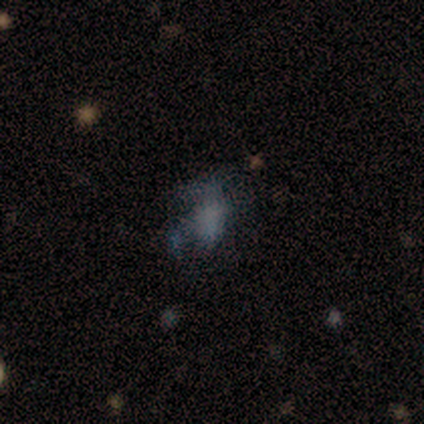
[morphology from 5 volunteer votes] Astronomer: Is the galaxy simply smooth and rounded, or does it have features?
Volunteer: smooth — 60% (runner-up: featured or disk, 40%).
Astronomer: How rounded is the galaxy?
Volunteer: in between — 67%.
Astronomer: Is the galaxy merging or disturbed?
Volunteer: none — 80%.